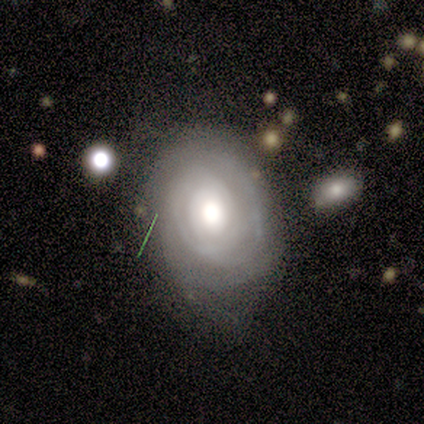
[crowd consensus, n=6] Smooth or featured? 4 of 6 (67%) said featured or disk. Edge-on disk? 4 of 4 (100%) said no. Bar? 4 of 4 (100%) said no. Spiral arms? 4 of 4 (100%) said yes. Spiral winding? 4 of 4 (100%) said tight. Spiral arm count? 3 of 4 (75%) said can't tell. Bulge size? 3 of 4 (75%) said moderate. Merging? 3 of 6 (50%, tied with minor disturbance) said none.